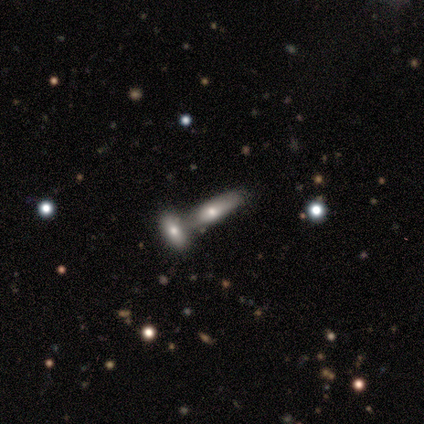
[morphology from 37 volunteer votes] Smooth or featured? smooth (59%)
How rounded? cigar-shaped (68%)
Merging? merger (49%)